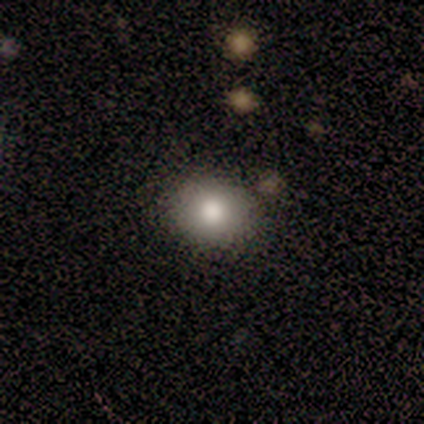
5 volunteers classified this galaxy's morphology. Smooth or featured: smooth — 100%
How rounded: in between — 60% (round — 40%)
Merging: none — 80% (minor disturbance — 20%)